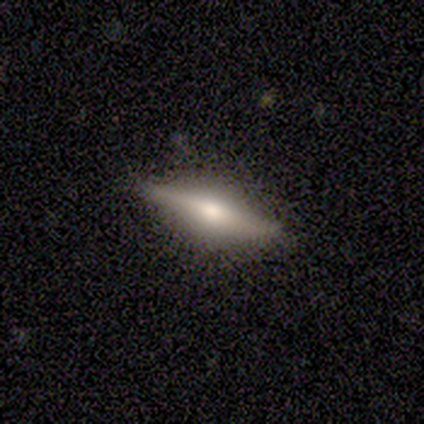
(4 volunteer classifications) featured or disk 75%, smooth 25%, star or artifact 0%. Down the decision tree: edge-on disk — yes (100%); edge-on bulge — rounded (100%); merging — none (75%).